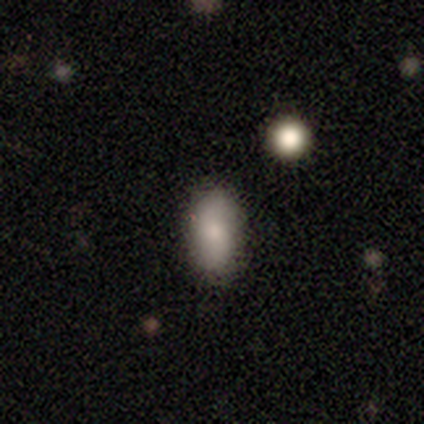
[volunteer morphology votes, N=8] type=smooth (100%); roundness=in between (62%); merging=none (88%).